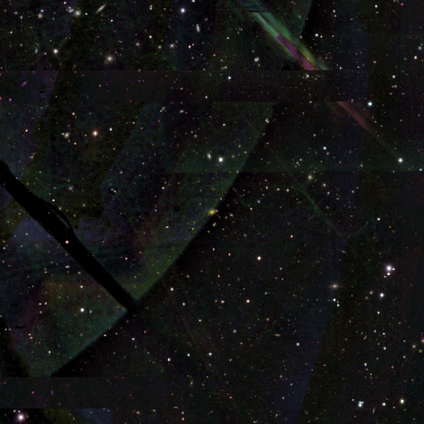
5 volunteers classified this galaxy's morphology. Smooth or featured?
  - star or artifact: 80% *
  - featured or disk: 20%
  - smooth: 0%